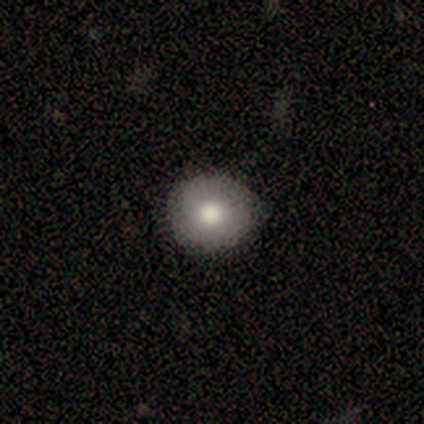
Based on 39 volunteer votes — A smooth galaxy with no disk features (82%) that is round (97%). Merging: none (80%).